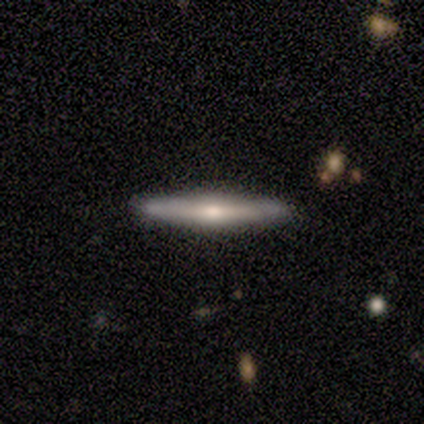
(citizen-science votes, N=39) smooth-or-featured: featured or disk: 69% | smooth: 26% | star or artifact: 5%
  disk-edge-on: yes: 96% | no: 4%
    edge-on-bulge: rounded: 88% | none: 12% | boxy: 0%
  merging: none: 89% | minor disturbance: 11% | major disturbance: 0% | merger: 0%